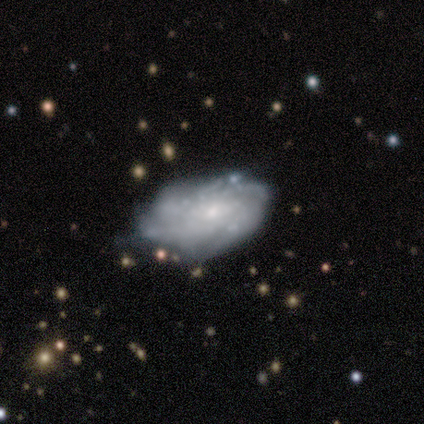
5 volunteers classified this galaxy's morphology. This appears to be a featured or disk galaxy (80%) with a weak bar (50%, tied with no), medium (67%) spiral arms (75%) and a small central bulge (75%). Merging: none (40%, tied with minor disturbance).